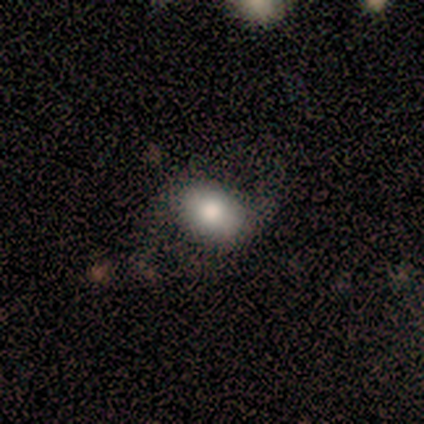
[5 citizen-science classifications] Smooth or featured? smooth (60%)
How rounded? in between (100%)
Merging? none (100%)